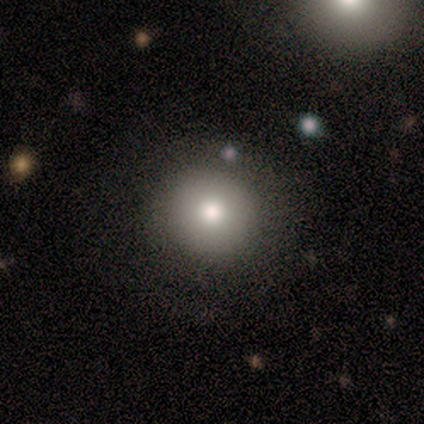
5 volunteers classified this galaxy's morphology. A smooth galaxy with no disk features (80%) that is round (75%). Merging: none (80%).